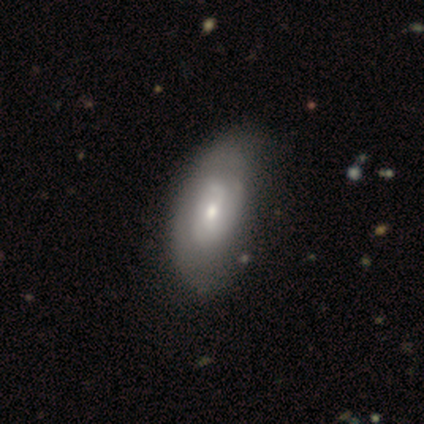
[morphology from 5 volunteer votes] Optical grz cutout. It shows a smooth galaxy with no disk features (40%, tied with featured or disk) that is in between round and cigar-shaped (100%). Merging: none (75%).